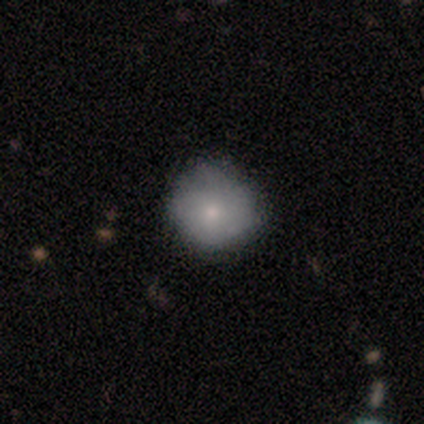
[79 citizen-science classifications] Smooth or featured? 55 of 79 (70%) said smooth. How rounded? 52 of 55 (95%) said round. Merging? 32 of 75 (43%) said none.